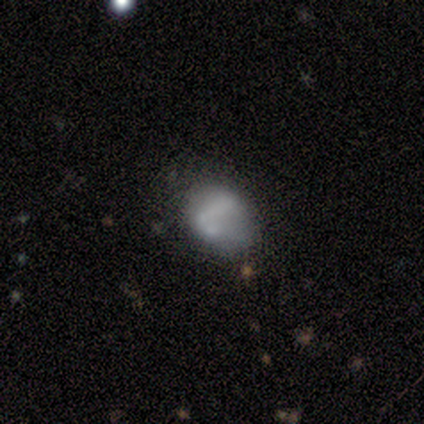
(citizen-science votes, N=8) Smooth or featured: smooth — 75% (featured or disk — 25%)
How rounded: in between — 67% (round — 33%)
Merging: none — 50% (tied with minor disturbance — 50%)